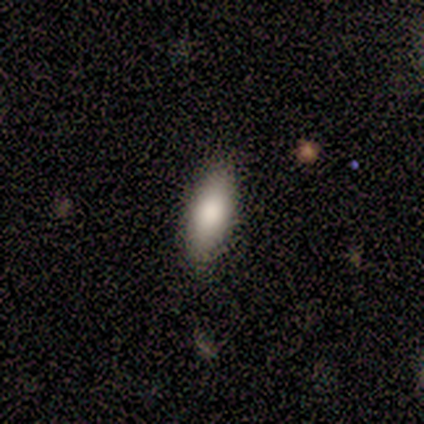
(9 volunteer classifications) Volunteers were most divided on "smooth or featured": smooth: 89%, featured or disk: 11%, star or artifact: 0%. More confident: how rounded — in between (100%); merging — none (100%).